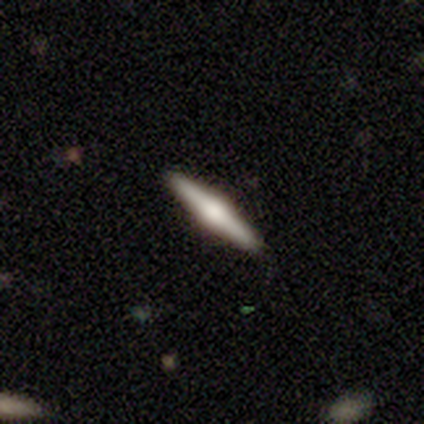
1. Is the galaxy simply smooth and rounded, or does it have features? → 51% featured or disk, 36% smooth, 13% star or artifact.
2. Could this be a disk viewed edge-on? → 100% yes, 0% no.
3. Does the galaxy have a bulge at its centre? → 100% rounded, 0% boxy, 0% none.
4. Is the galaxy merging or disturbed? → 100% none, 0% minor disturbance, 0% major disturbance, 0% merger.